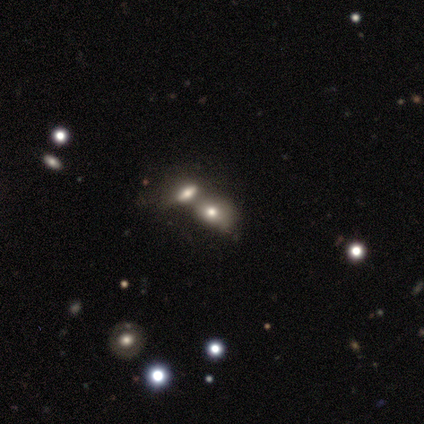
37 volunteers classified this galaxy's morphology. type=smooth (68%); roundness=in between (76%); merging=merger (79%).